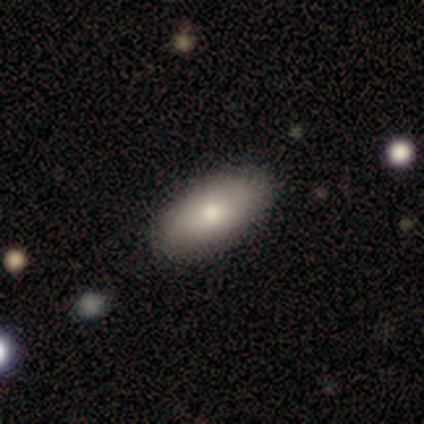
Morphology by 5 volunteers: Smooth or featured? smooth (80%)
How rounded? in between (100%)
Merging? none (50%, tied with minor disturbance)